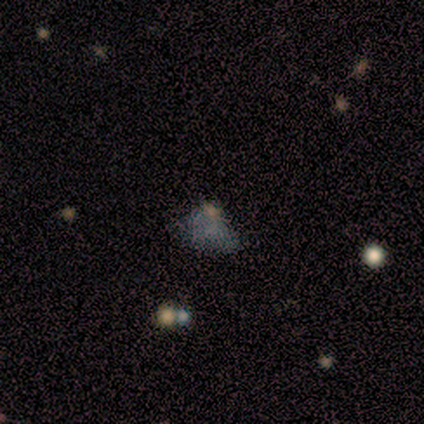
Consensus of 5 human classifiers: Volunteers were most divided on "smooth or featured" (2-way tie): smooth: 40%, star or artifact: 40%, featured or disk: 20%; "how rounded" (2-way tie): in between: 50%, cigar-shaped: 50%, round: 0%. More confident: merging — minor disturbance (67%).